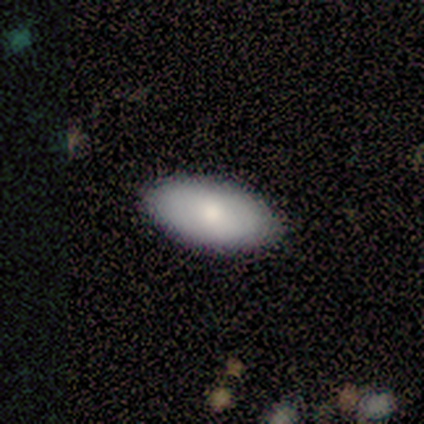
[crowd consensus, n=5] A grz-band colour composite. It shows a smooth galaxy with no disk features (80%) that is in between round and cigar-shaped (100%). Merging: none (80%).